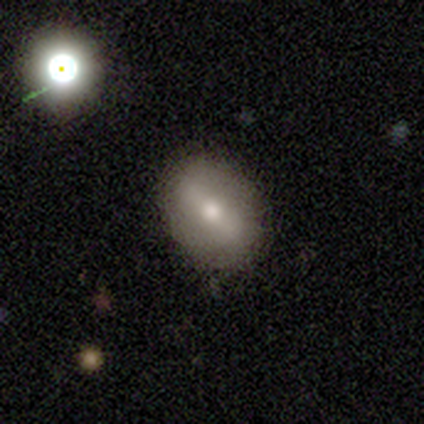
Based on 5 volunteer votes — Smooth or featured: smooth — 100%
How rounded: in between — 80% (round — 20%)
Merging: none — 60% (minor disturbance — 20%)